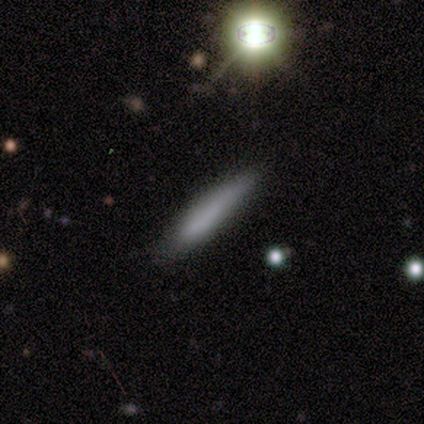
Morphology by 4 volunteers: smooth_or_featured: smooth (p=1.00)
how_rounded: cigar-shaped (p=1.00)
merging: none (p=1.00)